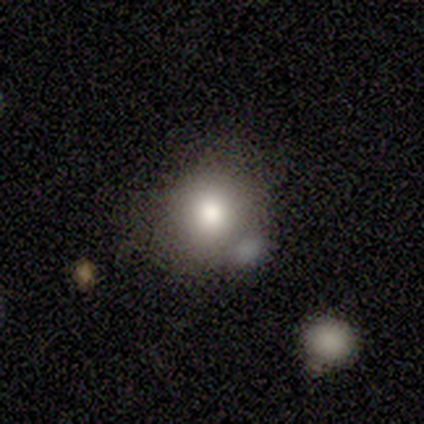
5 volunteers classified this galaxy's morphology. Volunteers were most divided on "how rounded": round: 67%, in between: 33%, cigar-shaped: 0%. More confident: merging — none (75%); smooth or featured — smooth (60%).